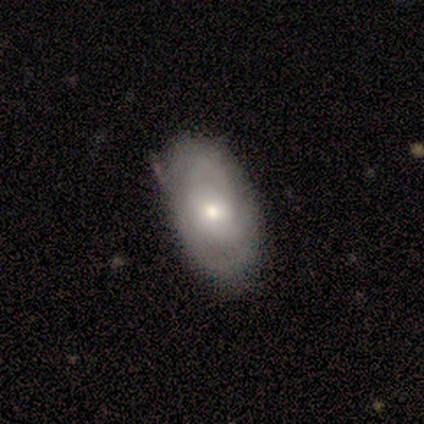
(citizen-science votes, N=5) A smooth galaxy with no disk features (40%, tied with featured or disk) that is in between round and cigar-shaped (100%).

Vote fractions:
- Smooth or featured? smooth: 40% (tied) / featured or disk: 40% (tied) / star or artifact: 20%
- How rounded? in between: 100% / round: 0% / cigar-shaped: 0%
- Merging? none: 100% / minor disturbance: 0% / major disturbance: 0% / merger: 0%